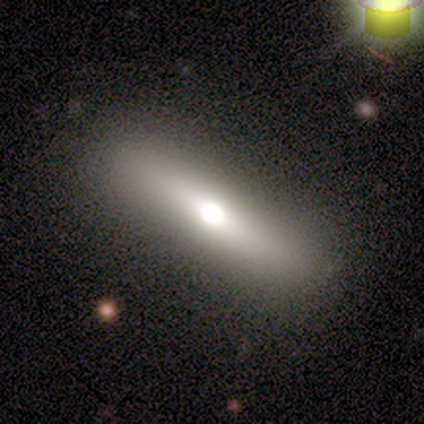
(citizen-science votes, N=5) This is likely a smooth galaxy (60%). How rounded: likely in between (67%). Merging: clearly none (80%).